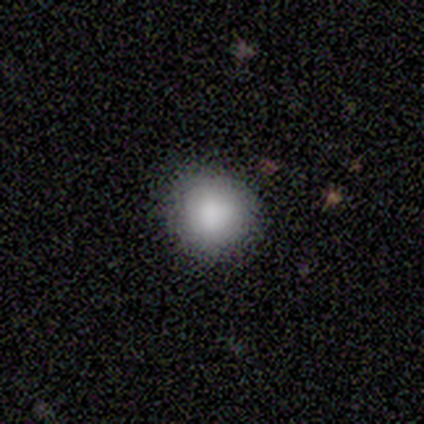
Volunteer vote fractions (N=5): smooth 80%, featured or disk 20%, star or artifact 0%. Down the decision tree: how rounded — round (100%); merging — none (100%).